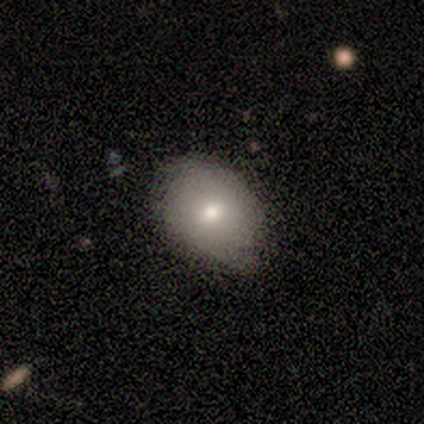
smooth_or_featured: smooth (p=1.00)
how_rounded: in between (p=0.60) [alt: round p=0.40]
merging: none (p=0.80) [alt: minor disturbance p=0.20]